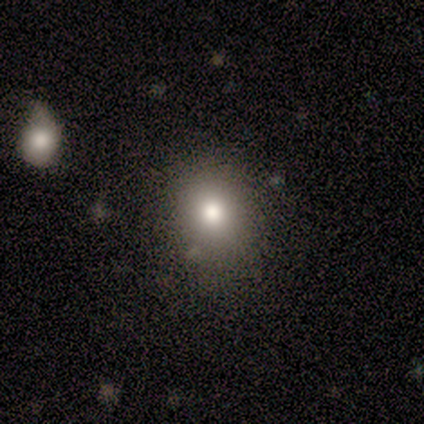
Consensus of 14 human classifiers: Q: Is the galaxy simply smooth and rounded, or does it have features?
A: smooth — 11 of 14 (79%).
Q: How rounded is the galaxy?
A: round — 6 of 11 (55%).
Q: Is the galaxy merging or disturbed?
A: none — 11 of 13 (85%).